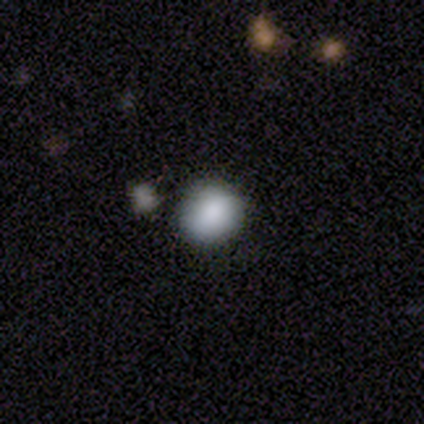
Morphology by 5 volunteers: Overall: smooth (80%). How rounded: round (50%, tied with in between). Merging: none (60%; minor disturbance 20%).